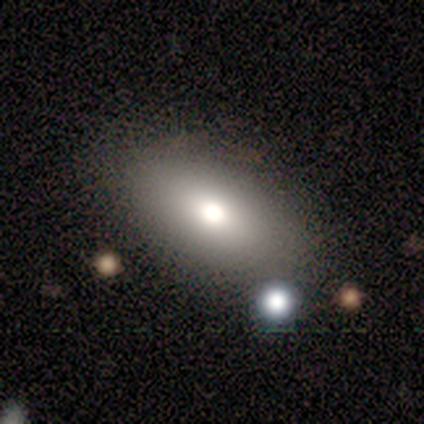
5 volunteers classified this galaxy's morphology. smooth-or-featured: smooth: 60% | featured or disk: 20% | star or artifact: 20%
  how-rounded: in between: 100% | round: 0% | cigar-shaped: 0%
  merging: none: 75% | major disturbance: 25% | minor disturbance: 0% | merger: 0%